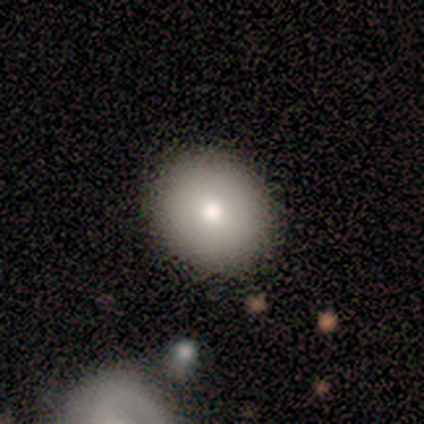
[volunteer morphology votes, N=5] A smooth galaxy with no disk features (80%) that is round (75%).

Vote fractions:
- Smooth or featured? smooth: 80% / featured or disk: 20% / star or artifact: 0%
- How rounded? round: 75% / in between: 25% / cigar-shaped: 0%
- Merging? none: 60% / minor disturbance: 20% / merger: 20% / major disturbance: 0%